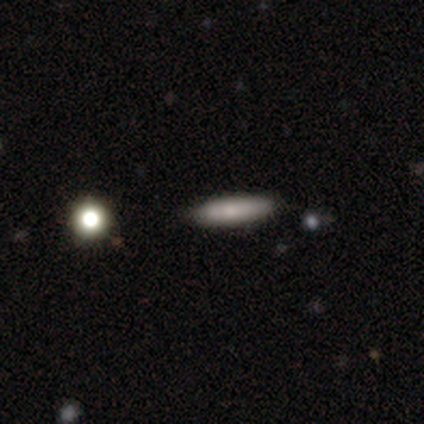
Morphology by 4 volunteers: smooth-or-featured: featured or disk: 50% | smooth: 25% | star or artifact: 25%
  disk-edge-on: yes: 50% (tied) | no: 50% (tied)
    edge-on-bulge: rounded: 100% | boxy: 0% | none: 0%
  merging: none: 100% | minor disturbance: 0% | major disturbance: 0% | merger: 0%